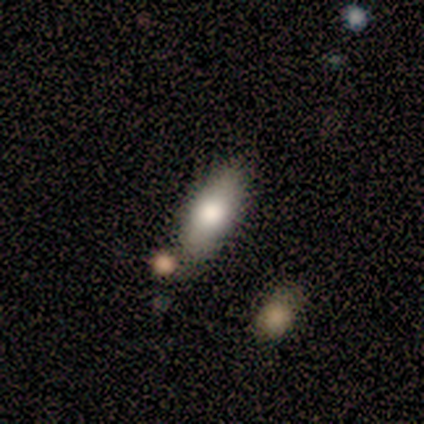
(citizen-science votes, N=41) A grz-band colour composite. It shows a smooth galaxy with no disk features (80%) that is in between round and cigar-shaped (88%). Merging: none (72%).